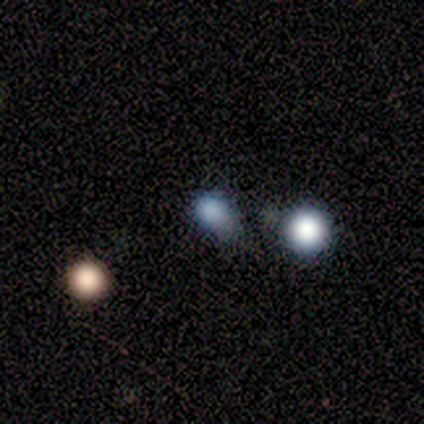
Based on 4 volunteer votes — A smooth galaxy with no disk features (50%) that is round (100%).

Vote fractions:
- Smooth or featured? smooth: 50% / featured or disk: 25% / star or artifact: 25%
- How rounded? round: 100% / in between: 0% / cigar-shaped: 0%
- Merging? minor disturbance: 67% / merger: 33% / none: 0% / major disturbance: 0%